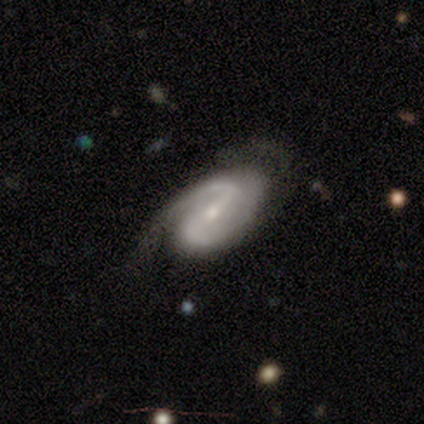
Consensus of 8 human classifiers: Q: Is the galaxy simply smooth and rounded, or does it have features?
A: featured or disk — 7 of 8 (88%).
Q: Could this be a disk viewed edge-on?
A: no — 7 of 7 (100%).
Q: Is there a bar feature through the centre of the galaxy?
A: strong — 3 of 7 (43%, tied with weak).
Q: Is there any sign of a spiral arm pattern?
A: yes — 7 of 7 (100%).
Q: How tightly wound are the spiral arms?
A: loose — 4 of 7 (57%).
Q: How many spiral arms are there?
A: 2 — 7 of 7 (100%).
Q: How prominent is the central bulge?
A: small — 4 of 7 (57%).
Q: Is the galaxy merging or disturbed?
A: none — 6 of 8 (75%).